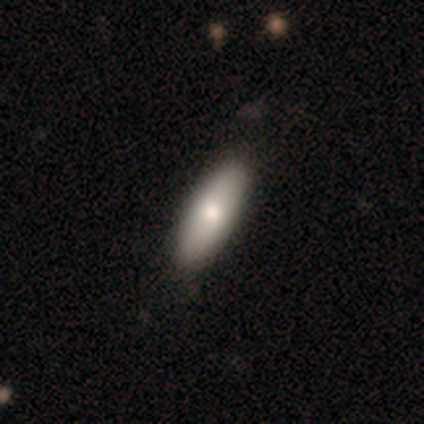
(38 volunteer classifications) This is likely a smooth galaxy (76%). How rounded: likely in between (69%). Merging: likely none (66%).